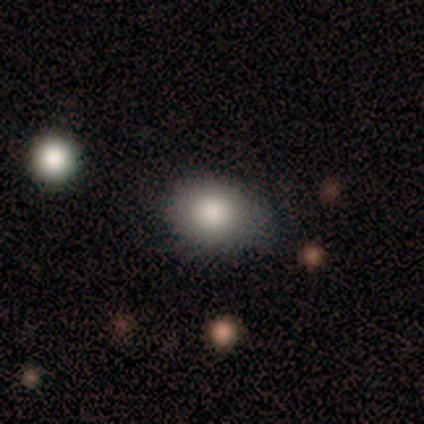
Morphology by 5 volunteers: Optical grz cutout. It shows a smooth galaxy with no disk features (80%) that is round (50%, tied with in between). Merging: none (75%).